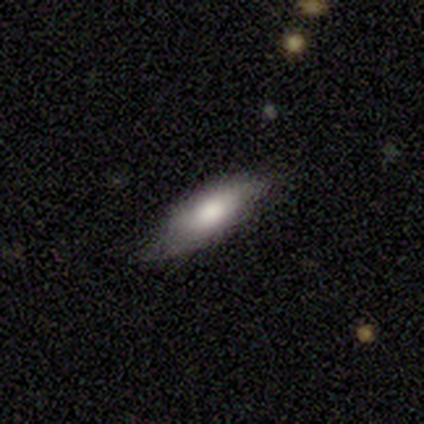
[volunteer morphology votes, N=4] A smooth galaxy with no disk features (75%) that is in between round and cigar-shaped (100%).

Vote fractions:
- Smooth or featured? smooth: 75% / featured or disk: 25% / star or artifact: 0%
- How rounded? in between: 100% / round: 0% / cigar-shaped: 0%
- Merging? none: 50% (tied) / minor disturbance: 50% (tied) / major disturbance: 0% / merger: 0%